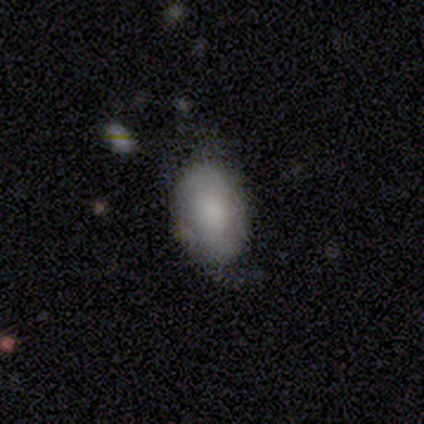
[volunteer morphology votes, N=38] This is likely a smooth galaxy (66%). How rounded: clearly in between (92%). Merging: likely none (68%).